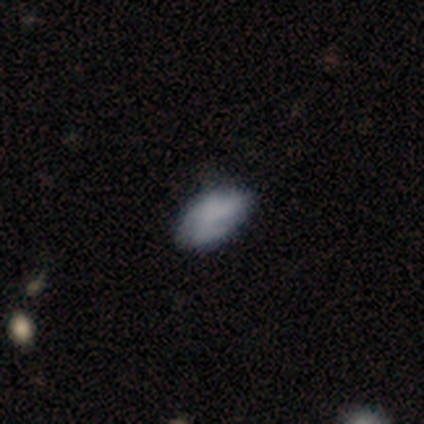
A smooth galaxy with no disk features (77%) that is in between round and cigar-shaped (97%).

Vote fractions:
- Smooth or featured? smooth: 77% / featured or disk: 13% / star or artifact: 10%
- How rounded? in between: 97% / cigar-shaped: 3% / round: 0%
- Merging? none: 69% / minor disturbance: 26% / major disturbance: 6% / merger: 0%